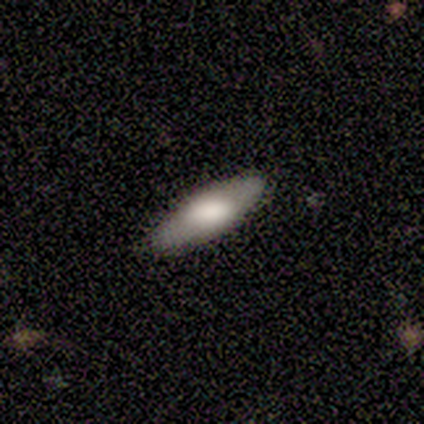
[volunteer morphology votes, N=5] This appears to be a smooth galaxy with no disk features (80%) that is cigar-shaped (50%). Merging: none (100%).